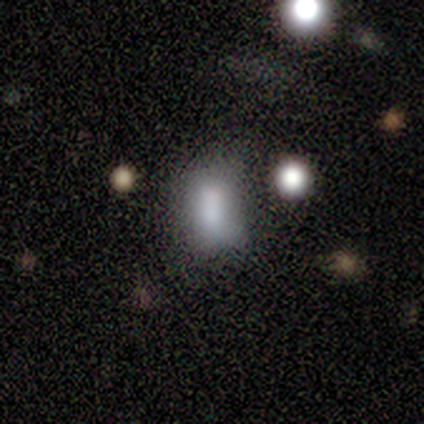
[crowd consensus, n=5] Smooth or featured?
  - smooth: 60% *
  - featured or disk: 20%
  - star or artifact: 20%
How rounded?
  - round: 67% *
  - in between: 33%
  - cigar-shaped: 0%
Merging?
  - none: 50% * (tied)
  - merger: 50% * (tied)
  - minor disturbance: 0%
  - major disturbance: 0%